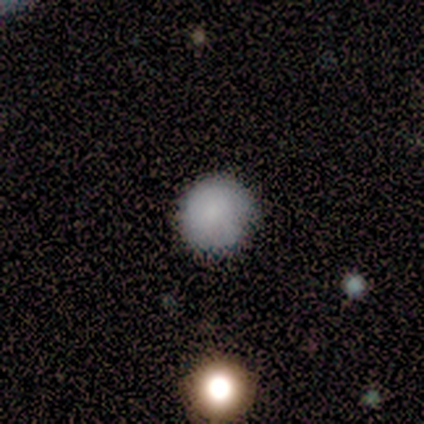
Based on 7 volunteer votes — This is clearly a smooth galaxy (100%). How rounded: clearly round (100%). Merging: clearly none (100%).